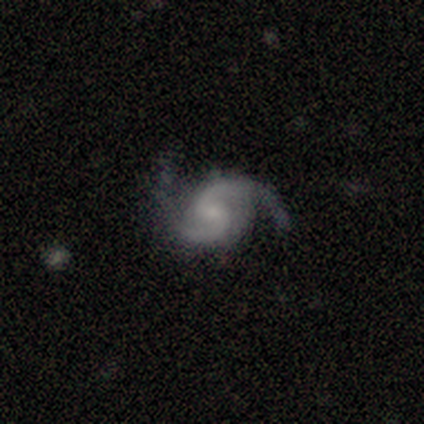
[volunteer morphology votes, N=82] Q: Smooth or featured?
A: featured or disk (94%); runner-up: star or artifact (4%)
Q: Edge-on disk?
A: no (100%)
Q: Bar?
A: weak (53%); runner-up: no (36%)
Q: Spiral arms?
A: yes (100%)
Q: Spiral winding?
A: medium (47%); runner-up: loose (32%)
Q: Spiral arm count?
A: 2 (99%); runner-up: 3 (1%)
Q: Bulge size?
A: small (70%); runner-up: moderate (17%)
Q: Merging?
A: none (73%); runner-up: minor disturbance (19%)